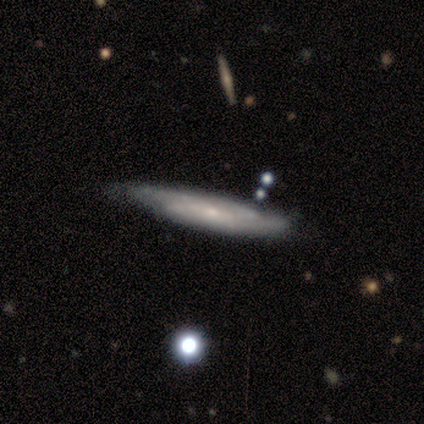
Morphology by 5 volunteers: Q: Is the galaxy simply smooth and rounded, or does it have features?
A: featured or disk — 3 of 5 (60%).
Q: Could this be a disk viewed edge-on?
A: no — 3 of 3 (100%).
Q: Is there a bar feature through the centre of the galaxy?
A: no — 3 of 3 (100%).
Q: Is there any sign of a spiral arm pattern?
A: yes — 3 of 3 (100%).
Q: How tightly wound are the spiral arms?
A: medium — 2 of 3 (67%).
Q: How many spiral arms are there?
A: can't tell — 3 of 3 (100%).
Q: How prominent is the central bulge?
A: small — 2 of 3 (67%).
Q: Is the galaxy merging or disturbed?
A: none — 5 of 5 (100%).